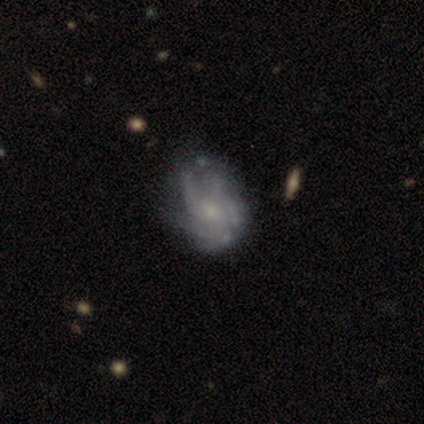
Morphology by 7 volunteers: Q: Smooth or featured?
A: featured or disk (100%)
Q: Edge-on disk?
A: no (100%)
Q: Bar?
A: no (86%); runner-up: weak (14%)
Q: Spiral arms?
A: yes (100%)
Q: Spiral winding?
A: medium (57%); runner-up: tight (29%)
Q: Spiral arm count?
A: 4 (43%); runner-up: 3 (29%)
Q: Bulge size?
A: small (86%); runner-up: moderate (14%)
Q: Merging?
A: none (57%); runner-up: major disturbance (29%)